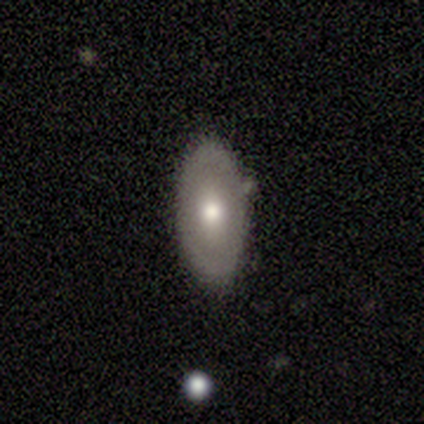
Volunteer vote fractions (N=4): This appears to be a smooth galaxy with no disk features (100%) that is in between round and cigar-shaped (100%). Merging: none (75%).